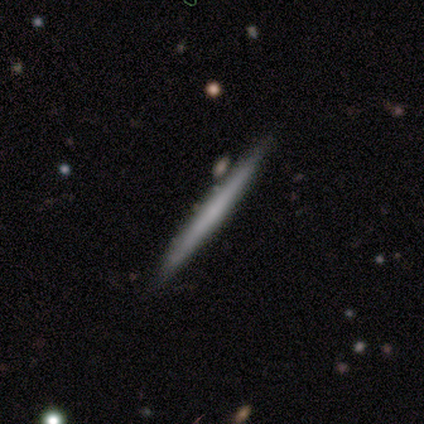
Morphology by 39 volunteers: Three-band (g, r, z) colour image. It shows a featured or disk galaxy (62%) viewed edge-on (92%) with no central bulge (82%). Merging: none (68%).